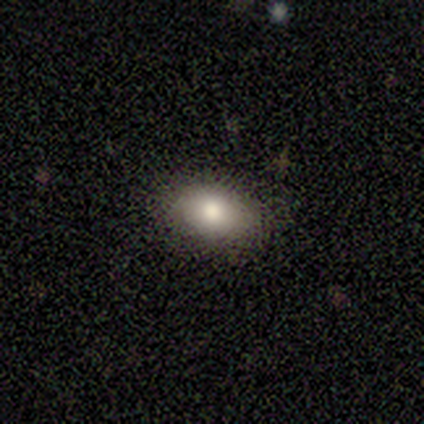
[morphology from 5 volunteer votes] A smooth galaxy with no disk features (60%) that is in between round and cigar-shaped (67%).

Vote fractions:
- Smooth or featured? smooth: 60% / featured or disk: 40% / star or artifact: 0%
- How rounded? in between: 67% / round: 33% / cigar-shaped: 0%
- Merging? none: 60% / minor disturbance: 40% / major disturbance: 0% / merger: 0%